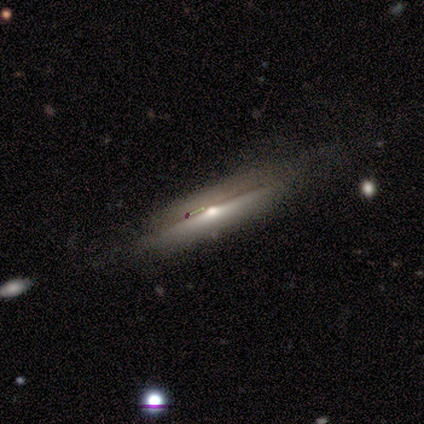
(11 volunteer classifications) Morphology: type=featured or disk (82%); edge-on=yes (100%); edge-on bulge=rounded (100%); merging=none (78%).